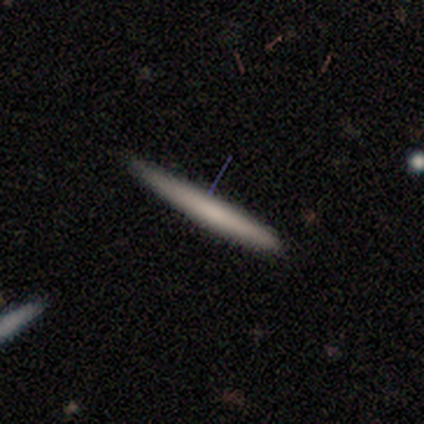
This appears to be a smooth galaxy with no disk features (75%) that is cigar-shaped (100%). Merging: none (100%).